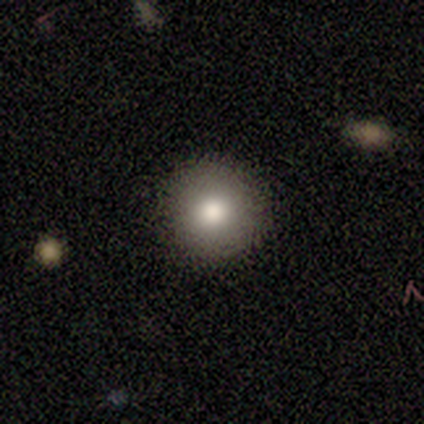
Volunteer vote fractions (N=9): Smooth or featured: smooth — 89% (featured or disk — 11%)
How rounded: round — 100%
Merging: none — 89% (minor disturbance — 11%)